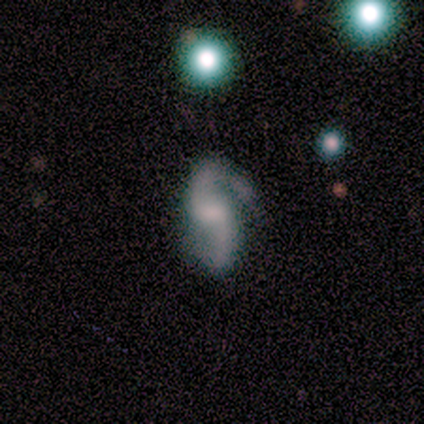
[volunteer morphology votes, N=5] type=featured or disk (80%); edge-on=no (100%); bar=weak (100%); spiral arms=yes (75%); winding=loose (100%); arm count=2 (100%); bulge=none (50%); merging=minor disturbance (60%).